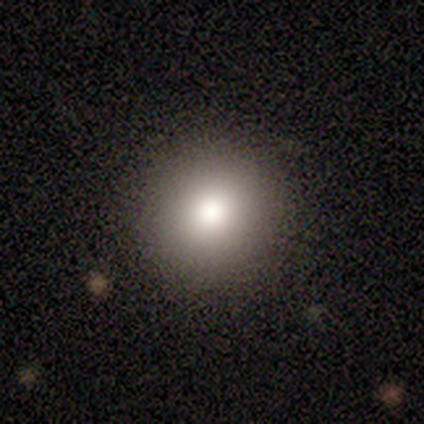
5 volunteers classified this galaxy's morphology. smooth 100%, featured or disk 0%, star or artifact 0%. Down the decision tree: how rounded — round (100%); merging — none (80%).